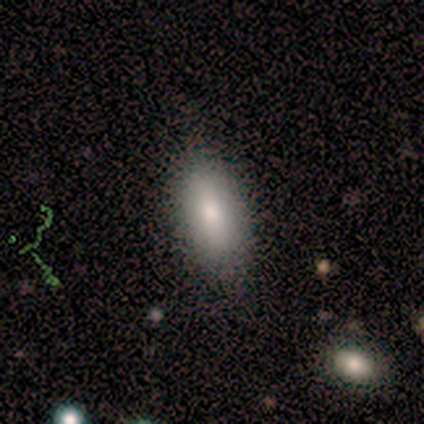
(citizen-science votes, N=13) A smooth galaxy with no disk features (100%) that is in between round and cigar-shaped (92%). Merging: none (85%).